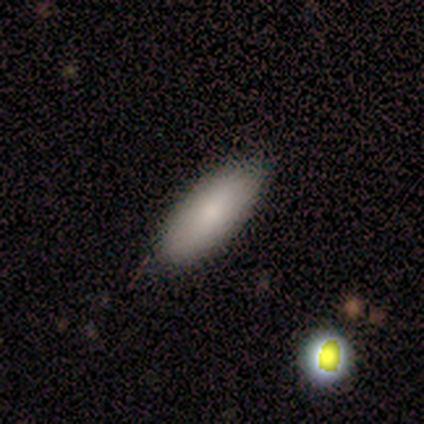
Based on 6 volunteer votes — A smooth galaxy with no disk features (100%) that is in between round and cigar-shaped (100%).

Vote fractions:
- Smooth or featured? smooth: 100% / featured or disk: 0% / star or artifact: 0%
- How rounded? in between: 100% / round: 0% / cigar-shaped: 0%
- Merging? none: 83% / minor disturbance: 17% / major disturbance: 0% / merger: 0%